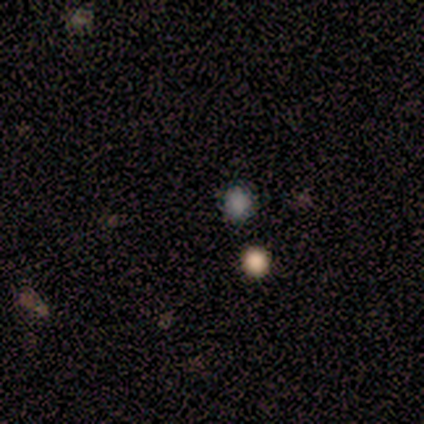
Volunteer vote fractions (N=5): Smooth or featured: smooth — 80% (star or artifact — 20%)
How rounded: round — 75% (in between — 25%)
Merging: none — 100%